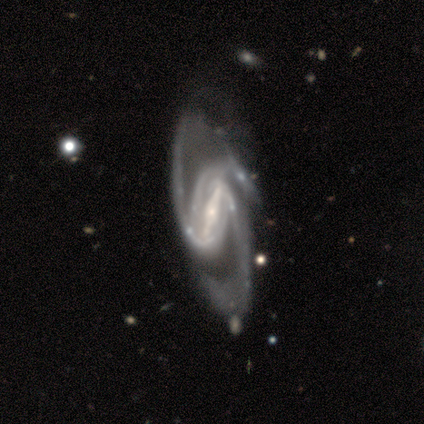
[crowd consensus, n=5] Overall: featured or disk (100%). Edge-on disk: no (100%). Bar: strong (100%). Spiral arms: yes (100%). Spiral arm count: 3 (60%; 2 40%). Spiral winding: tight (80%). Bulge size: small (60%; moderate 40%). Merging: none (60%; major disturbance 20%).